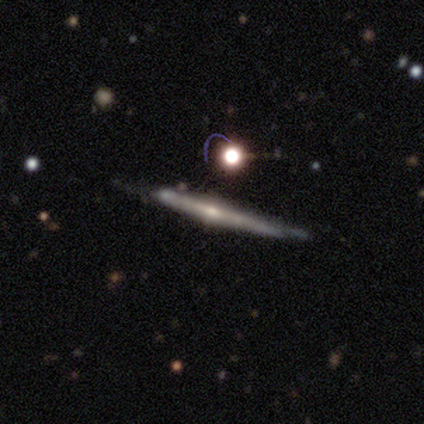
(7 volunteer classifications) A featured or disk galaxy (71%) viewed edge-on (100%) with a rounded central bulge (100%). Merging: none (40%, tied with major disturbance).